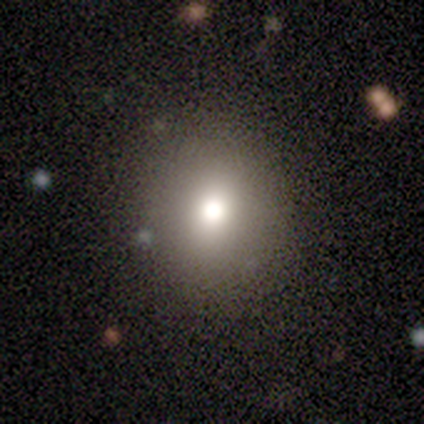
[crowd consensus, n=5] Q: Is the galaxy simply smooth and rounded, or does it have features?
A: smooth — 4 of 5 (80%).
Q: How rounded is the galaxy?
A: round — 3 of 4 (75%).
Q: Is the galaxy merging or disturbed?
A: none — 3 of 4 (75%).